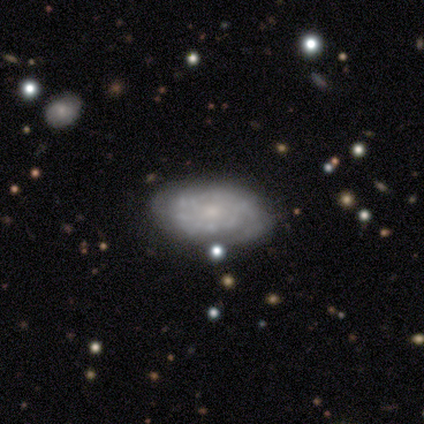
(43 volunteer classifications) Overall: featured or disk (70%). Edge-on disk: no (93%). Bar: no (93%). Spiral arms: yes (79%). Spiral arm count: can't tell (77%). Spiral winding: tight (86%). Bulge size: small (64%). Merging: none (45%; minor disturbance 19%).